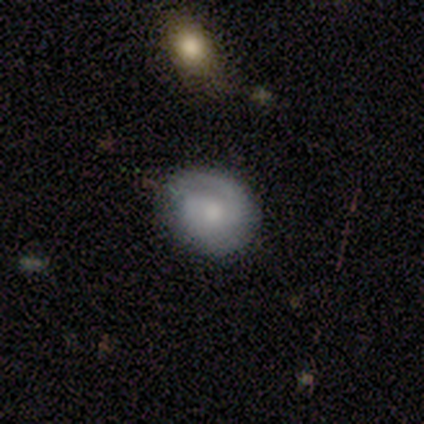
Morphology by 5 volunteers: smooth_or_featured: featured or disk (p=0.60) [alt: smooth p=0.40]
disk_edge_on: no (p=1.00)
bar: weak (p=0.67) [alt: no p=0.33]
has_spiral_arms: yes (p=1.00)
spiral_winding: medium (p=0.67) [alt: tight p=0.33]
spiral_arm_count: 2 (p=0.67) [alt: 1 p=0.33]
bulge_size: small (p=0.67) [alt: moderate p=0.33]
merging: minor disturbance (p=0.60) [alt: none p=0.40]